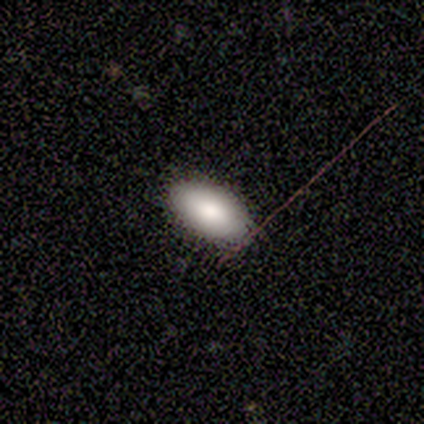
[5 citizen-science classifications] Volunteers were most divided on "smooth or featured": smooth: 80%, featured or disk: 20%, star or artifact: 0%. More confident: how rounded — in between (100%); merging — none (100%).